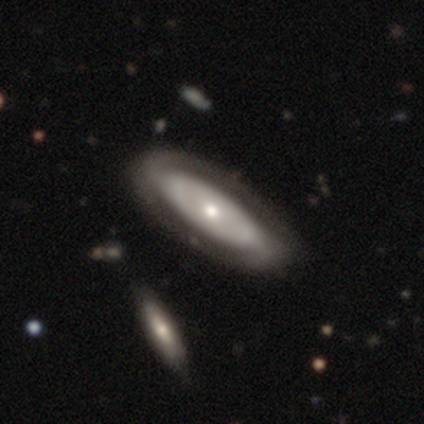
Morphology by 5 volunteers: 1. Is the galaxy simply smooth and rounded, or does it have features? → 60% smooth, 20% featured or disk, 20% star or artifact.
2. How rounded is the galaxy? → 100% in between, 0% round, 0% cigar-shaped.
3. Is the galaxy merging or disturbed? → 75% none, 25% minor disturbance, 0% major disturbance, 0% merger.